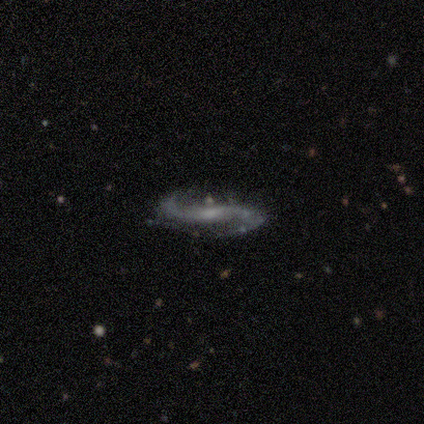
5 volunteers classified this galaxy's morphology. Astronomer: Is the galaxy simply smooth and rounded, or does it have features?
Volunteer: featured or disk — 80%.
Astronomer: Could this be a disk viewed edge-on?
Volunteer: no — 75%.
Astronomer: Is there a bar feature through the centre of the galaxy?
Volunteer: weak — 67%.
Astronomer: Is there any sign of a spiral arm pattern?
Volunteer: yes — 100%.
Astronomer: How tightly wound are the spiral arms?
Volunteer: loose — 100%.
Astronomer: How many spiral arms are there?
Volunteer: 2 — 100%.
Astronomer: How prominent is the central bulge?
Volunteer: small — 100%.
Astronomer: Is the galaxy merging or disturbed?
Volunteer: none — 75%.